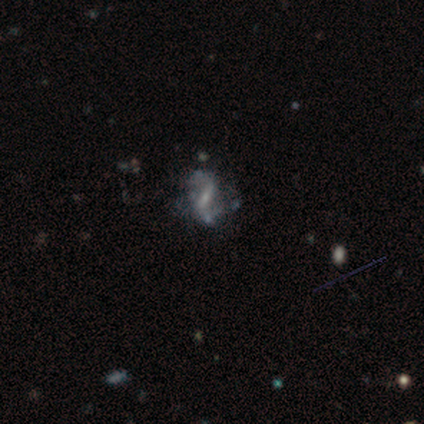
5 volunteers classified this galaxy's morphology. Smooth or featured: featured or disk — 80% (smooth — 20%)
Edge-on disk: no — 100%
Bar: weak — 75% (no — 25%)
Spiral arms: yes — 50% (tied with no — 50%)
Spiral winding: loose — 100%
Spiral arm count: 2 — 100%
Bulge size: small — 100%
Merging: minor disturbance — 60% (none — 20%)